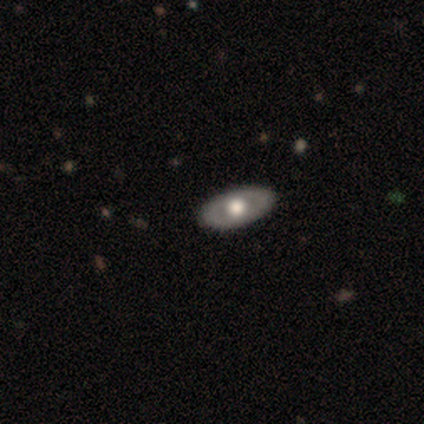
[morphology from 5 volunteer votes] Smooth or featured? featured or disk (80%)
Edge-on disk? no (100%)
Bar? no (100%)
Spiral arms? no (75%)
Bulge size? large (50%, tied with moderate)
Merging? none (80%)